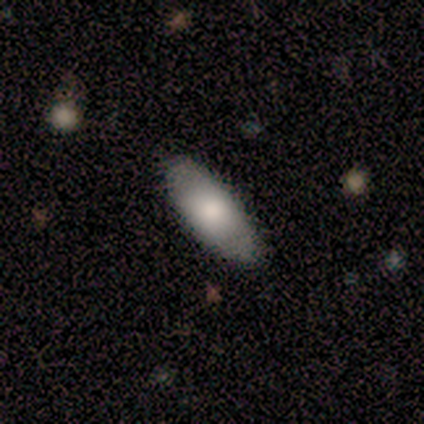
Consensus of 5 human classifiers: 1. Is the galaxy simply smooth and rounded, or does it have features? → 80% smooth, 20% featured or disk, 0% star or artifact.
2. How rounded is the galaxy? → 100% in between, 0% round, 0% cigar-shaped.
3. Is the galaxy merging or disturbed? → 80% none, 20% minor disturbance, 0% major disturbance, 0% merger.